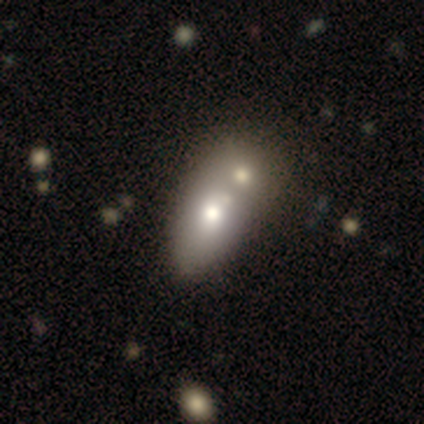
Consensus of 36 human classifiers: smooth 69%, featured or disk 28%, star or artifact 3%. Down the decision tree: how rounded — in between (92%); merging — merger (69%).